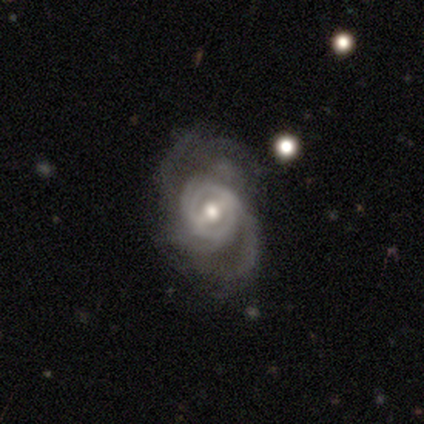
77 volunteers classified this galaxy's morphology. smooth-or-featured: featured or disk: 92% | star or artifact: 5% | smooth: 3%
  disk-edge-on: no: 100% | yes: 0%
    bar: weak: 56% | strong: 31% | no: 13%
    has-spiral-arms: yes: 94% | no: 6%
      spiral-winding: medium: 48% | tight: 30% | loose: 22%
      spiral-arm-count: 2: 40% | can't tell: 33% | 3: 12% | 4: 10% | 1: 3% | more than 4: 1%
    bulge-size: moderate: 73% | large: 13% | small: 13% | dominant: 1% | none: 0%
  merging: none: 25% | minor disturbance: 15% | major disturbance: 10% | merger: 3%